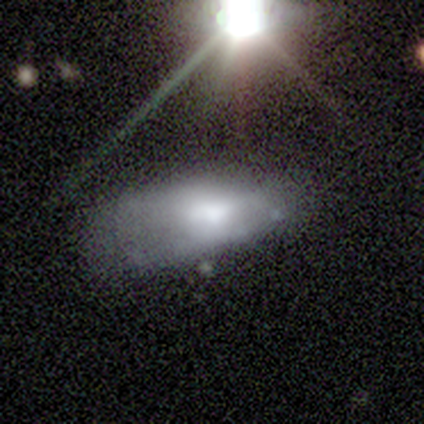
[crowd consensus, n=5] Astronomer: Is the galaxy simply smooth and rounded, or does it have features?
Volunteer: smooth — 60%.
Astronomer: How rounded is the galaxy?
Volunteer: in between — 67%.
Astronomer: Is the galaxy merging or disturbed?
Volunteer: none — 50%, tied with minor disturbance at 50%.